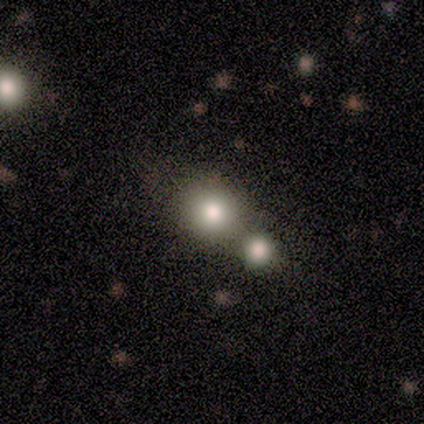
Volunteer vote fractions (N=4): This appears to be a smooth galaxy with no disk features (50%, tied with featured or disk) that is round (50%, tied with in between). Merging: merger (75%).